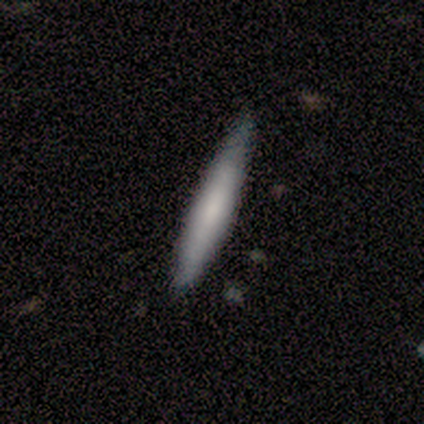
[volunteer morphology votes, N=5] Q: Smooth or featured?
A: featured or disk (80%); runner-up: smooth (20%)
Q: Edge-on disk?
A: yes (100%)
Q: Edge-on bulge?
A: none (50%); runner-up: boxy (25%)
Q: Merging?
A: minor disturbance (60%); runner-up: none (40%)